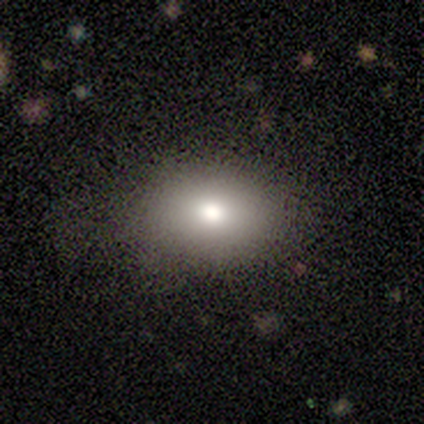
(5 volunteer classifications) Q: Smooth or featured?
A: smooth (80%); runner-up: star or artifact (20%)
Q: How rounded?
A: in between (75%); runner-up: round (25%)
Q: Merging?
A: none (75%); runner-up: major disturbance (25%)